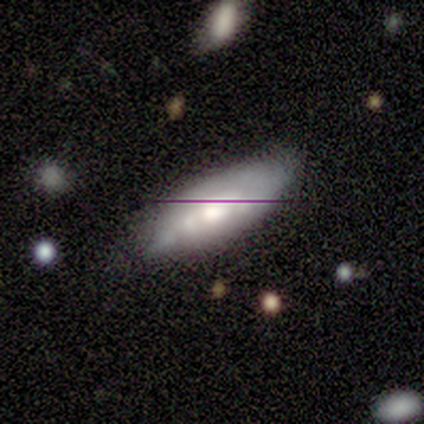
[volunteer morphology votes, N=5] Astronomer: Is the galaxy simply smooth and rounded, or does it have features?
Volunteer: smooth — 60%.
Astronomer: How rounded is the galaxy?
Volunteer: in between — 100%.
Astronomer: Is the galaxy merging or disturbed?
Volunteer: none — 100%.